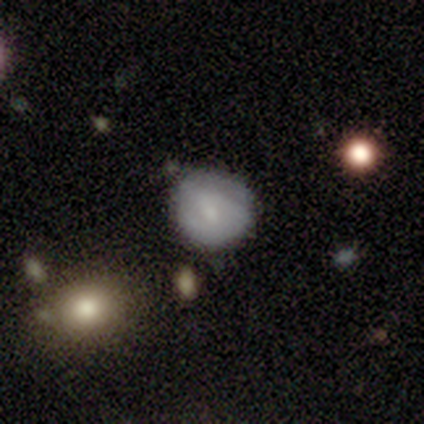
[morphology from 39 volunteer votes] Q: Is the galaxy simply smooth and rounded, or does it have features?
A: smooth — 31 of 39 (79%).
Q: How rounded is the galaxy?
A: round — 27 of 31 (87%).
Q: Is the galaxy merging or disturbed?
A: none — 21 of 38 (55%).